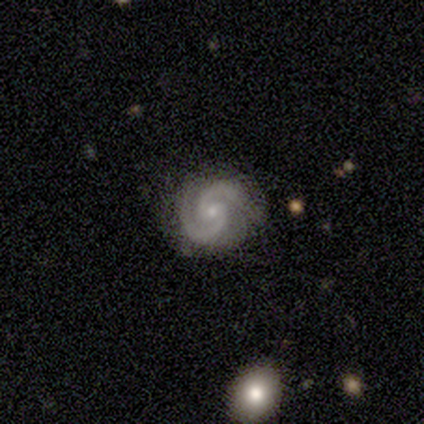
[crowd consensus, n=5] A featured or disk galaxy (100%) with a weak bar (60%), 2 (100%) tight (60%) spiral arms (100%) and a small central bulge (80%).

Vote fractions:
- Smooth or featured? featured or disk: 100% / smooth: 0% / star or artifact: 0%
- Edge-on disk? no: 100% / yes: 0%
- Bar? weak: 60% / no: 40% / strong: 0%
- Spiral arms? yes: 100% / no: 0%
- Spiral winding? tight: 60% / medium: 40% / loose: 0%
- Spiral arm count? 2: 100% / 1: 0% / 3: 0% / 4: 0% / more than 4: 0% / can't tell: 0%
- Bulge size? small: 80% / moderate: 20% / dominant: 0% / large: 0% / none: 0%
- Merging? minor disturbance: 60% / none: 40% / major disturbance: 0% / merger: 0%